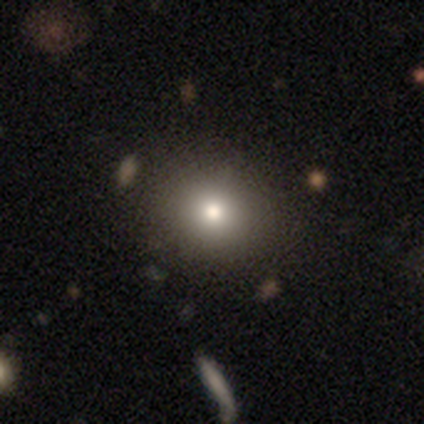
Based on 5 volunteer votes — Smooth or featured: smooth — 80% (star or artifact — 20%)
How rounded: round — 100%
Merging: none — 75% (minor disturbance — 25%)